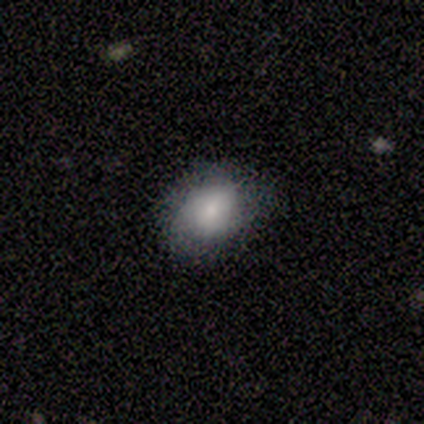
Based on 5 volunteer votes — This appears to be a smooth galaxy with no disk features (80%) that is round (75%). Merging: none (40%).